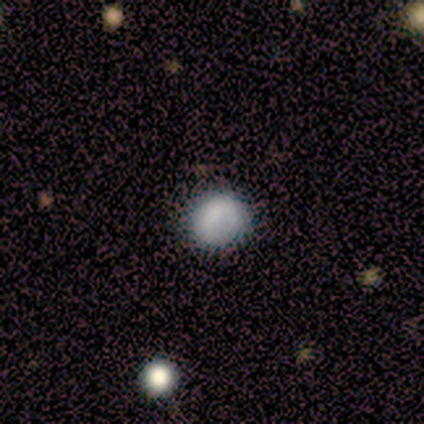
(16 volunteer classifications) A smooth galaxy with no disk features (75%) that is round (83%).

Vote fractions:
- Smooth or featured? smooth: 75% / star or artifact: 25% / featured or disk: 0%
- How rounded? round: 83% / in between: 17% / cigar-shaped: 0%
- Merging? none: 92% / minor disturbance: 8% / major disturbance: 0% / merger: 0%